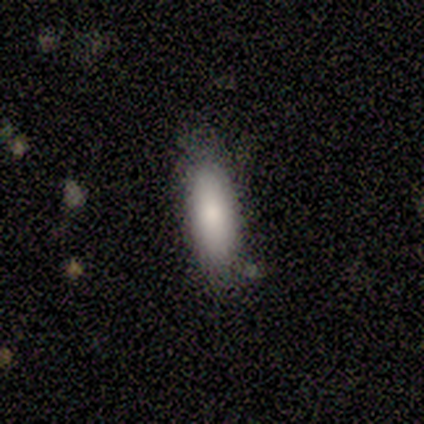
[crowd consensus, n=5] A smooth galaxy with no disk features (80%) that is in between round and cigar-shaped (75%). Merging: none (100%).